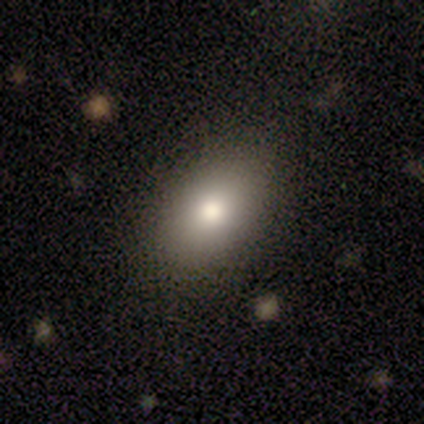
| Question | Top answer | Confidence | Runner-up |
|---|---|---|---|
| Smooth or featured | smooth | 100% | — |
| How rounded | in between | 80% | round (20%) |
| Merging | none | 100% | — |